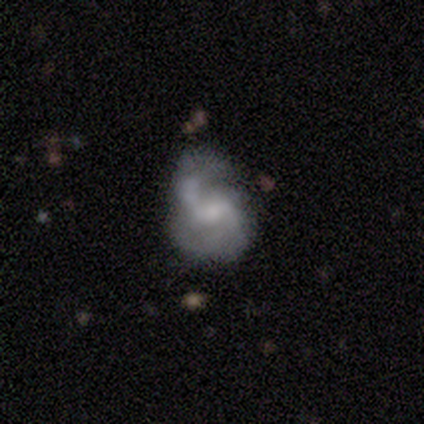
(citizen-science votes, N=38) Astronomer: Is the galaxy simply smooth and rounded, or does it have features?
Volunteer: featured or disk — 76%.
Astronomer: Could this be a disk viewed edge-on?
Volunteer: no — 100%.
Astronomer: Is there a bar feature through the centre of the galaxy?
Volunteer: weak — 59%.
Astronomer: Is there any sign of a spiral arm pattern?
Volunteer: yes — 90%.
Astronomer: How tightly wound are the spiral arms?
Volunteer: loose — 50% (runner-up: medium, 38%).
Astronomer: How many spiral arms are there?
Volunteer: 2 — 96%.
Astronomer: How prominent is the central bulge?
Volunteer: small — 55%.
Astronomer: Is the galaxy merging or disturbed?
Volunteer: none — 50%.